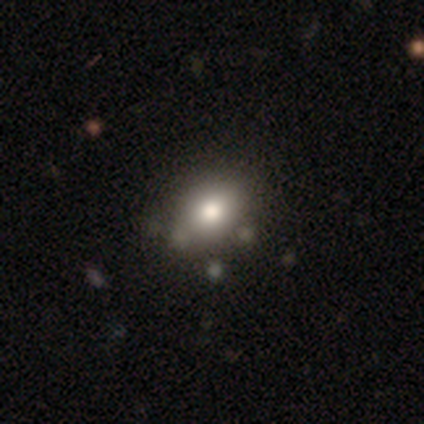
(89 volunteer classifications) Volunteers were most divided on "how rounded": in between: 58%, round: 41%, cigar-shaped: 1%. More confident: smooth or featured — smooth (78%); merging — none (76%).